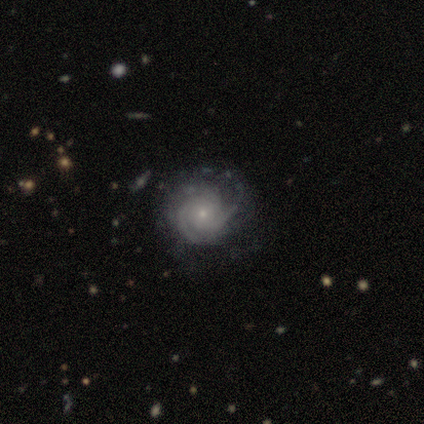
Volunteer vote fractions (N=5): Morphology: type=featured or disk (80%); edge-on=no (100%); bar=no (100%); spiral arms=yes (100%); winding=tight (100%); arm count=can't tell (75%); bulge=small (100%); merging=none (75%).